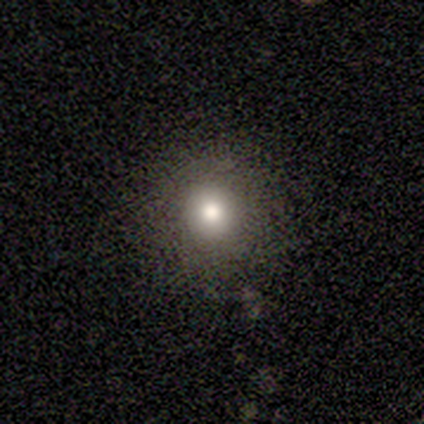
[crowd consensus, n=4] A smooth galaxy with no disk features (75%) that is round (100%).

Vote fractions:
- Smooth or featured? smooth: 75% / featured or disk: 25% / star or artifact: 0%
- How rounded? round: 100% / in between: 0% / cigar-shaped: 0%
- Merging? none: 100% / minor disturbance: 0% / major disturbance: 0% / merger: 0%